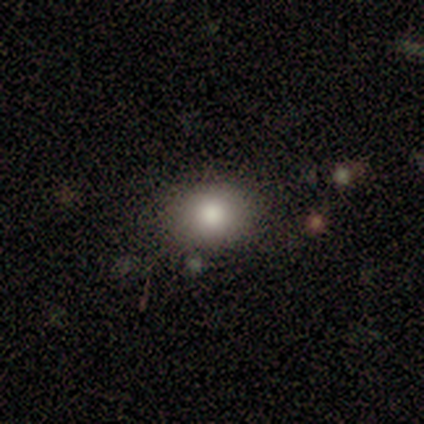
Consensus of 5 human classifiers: smooth-or-featured: smooth: 100% | featured or disk: 0% | star or artifact: 0%
  how-rounded: round: 60% | in between: 40% | cigar-shaped: 0%
  merging: none: 80% | merger: 20% | minor disturbance: 0% | major disturbance: 0%